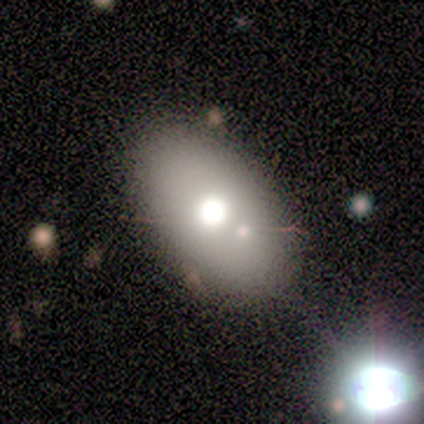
A smooth galaxy with no disk features (60%) that is in between round and cigar-shaped (100%).

Vote fractions:
- Smooth or featured? smooth: 60% / featured or disk: 40% / star or artifact: 0%
- How rounded? in between: 100% / round: 0% / cigar-shaped: 0%
- Merging? none: 100% / minor disturbance: 0% / major disturbance: 0% / merger: 0%